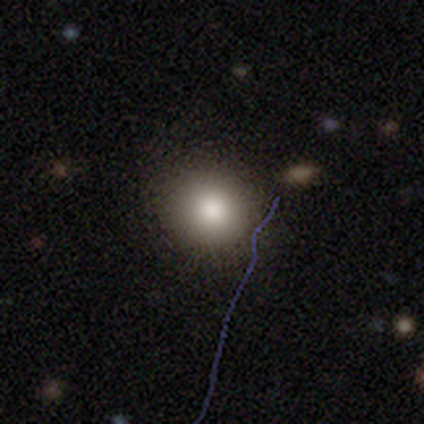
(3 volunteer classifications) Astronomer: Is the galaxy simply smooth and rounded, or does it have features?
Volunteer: smooth — 100%.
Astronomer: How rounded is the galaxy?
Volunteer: round — 67%.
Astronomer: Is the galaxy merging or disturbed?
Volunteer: none — 100%.